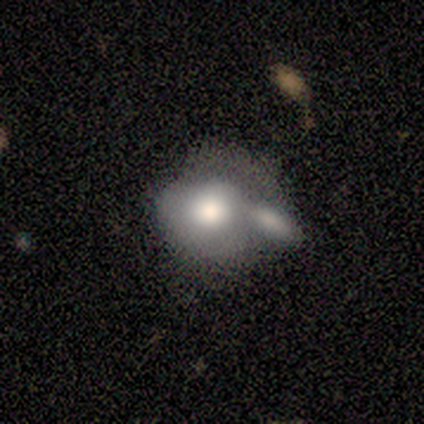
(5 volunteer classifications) Overall: smooth (60%; featured or disk 40%). How rounded: in between (67%; round 33%). Merging: merger (60%; none 20%).